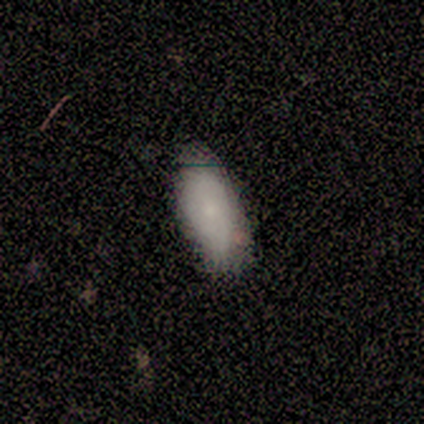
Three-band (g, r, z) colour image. It shows a smooth galaxy with no disk features (80%) that is in between round and cigar-shaped (75%). Merging: minor disturbance (60%).